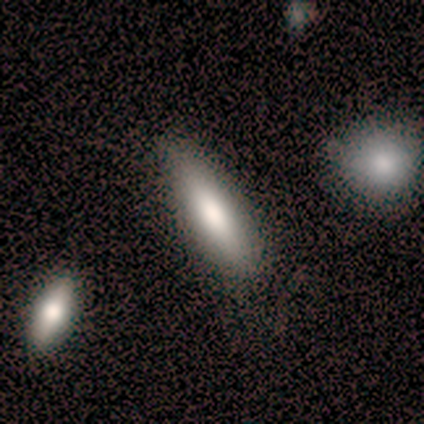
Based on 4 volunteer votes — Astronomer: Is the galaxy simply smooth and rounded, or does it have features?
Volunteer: smooth — 75%.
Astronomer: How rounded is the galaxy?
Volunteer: cigar-shaped — 67%.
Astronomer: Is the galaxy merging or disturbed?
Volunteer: none — 25%, tied with minor disturbance, major disturbance and merger at 25%.